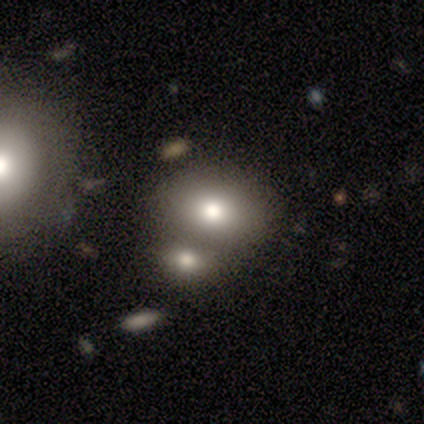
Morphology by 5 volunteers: Smooth or featured?
  - smooth: 100% *
  - featured or disk: 0%
  - star or artifact: 0%
How rounded?
  - round: 60% *
  - in between: 40%
  - cigar-shaped: 0%
Merging?
  - none: 80% *
  - merger: 20%
  - minor disturbance: 0%
  - major disturbance: 0%